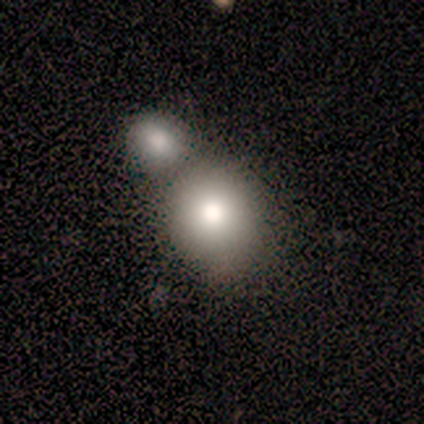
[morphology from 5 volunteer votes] smooth-or-featured: smooth: 80% | featured or disk: 20% | star or artifact: 0%
  how-rounded: round: 50% (tied) | in between: 50% (tied) | cigar-shaped: 0%
  merging: merger: 60% | none: 20% | minor disturbance: 20% | major disturbance: 0%